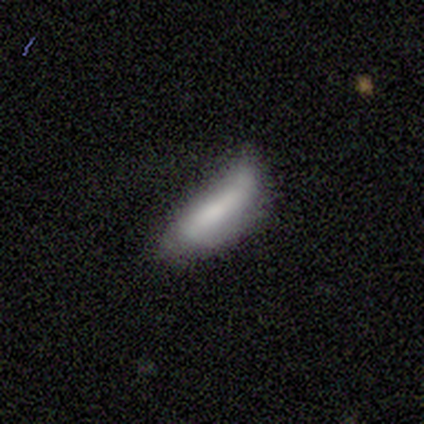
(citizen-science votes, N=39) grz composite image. It shows a smooth galaxy with no disk features (54%) that is cigar-shaped (57%). Merging: minor disturbance (51%).